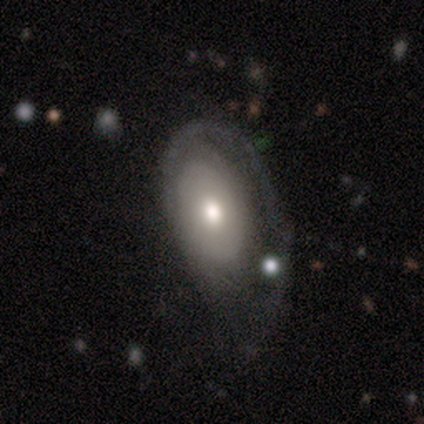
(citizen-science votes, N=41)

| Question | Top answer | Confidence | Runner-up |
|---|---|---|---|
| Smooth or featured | featured or disk | 51% | smooth (46%) |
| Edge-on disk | no | 90% | yes (10%) |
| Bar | no | 89% | weak (11%) |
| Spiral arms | yes | 53% | no (47%) |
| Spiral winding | tight | 40% | tied: loose (40%) |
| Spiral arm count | can't tell | 50% | 1 (40%) |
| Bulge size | moderate | 68% | small (16%) |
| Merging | major disturbance | 42% | minor disturbance (38%) |